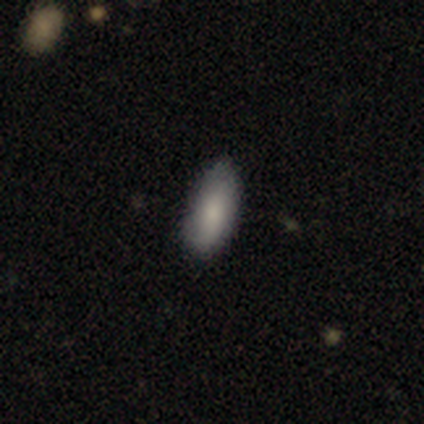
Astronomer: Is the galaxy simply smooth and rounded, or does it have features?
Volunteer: smooth — 80%.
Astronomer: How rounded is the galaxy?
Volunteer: in between — 100%.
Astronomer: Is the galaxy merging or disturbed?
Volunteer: none — 60% (runner-up: minor disturbance, 40%).